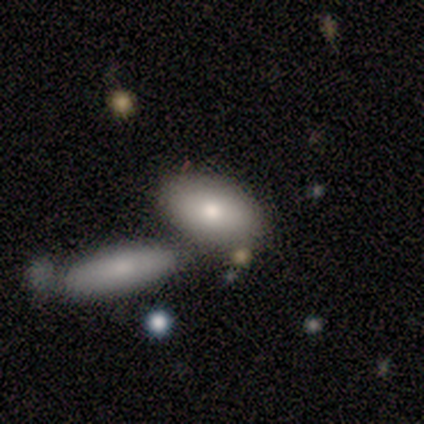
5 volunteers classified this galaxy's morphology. Volunteers were most divided on "merging": none: 60%, minor disturbance: 20%, merger: 20%, major disturbance: 0%. More confident: smooth or featured — smooth (100%); how rounded — in between (100%).